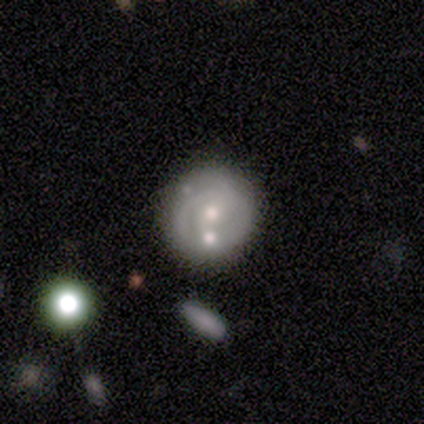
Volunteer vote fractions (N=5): Overall: featured or disk (60%; smooth 40%). Edge-on disk: no (100%). Bar: no (67%; weak 33%). Spiral arms: no (67%; yes 33%). Bulge size: small (67%; moderate 33%). Merging: none (80%).